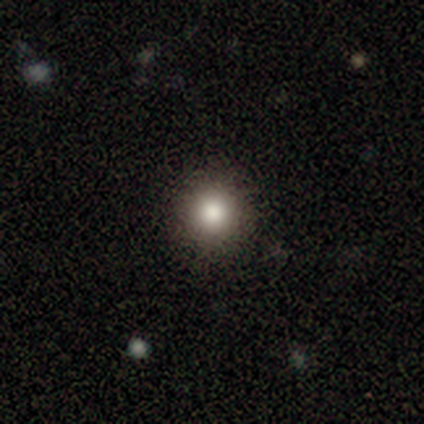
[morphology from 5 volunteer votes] Smooth or featured: smooth — 80% (star or artifact — 20%)
How rounded: round — 100%
Merging: none — 100%